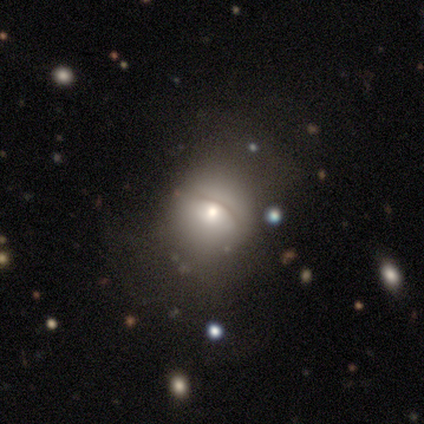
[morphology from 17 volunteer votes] This appears to be a smooth galaxy with no disk features (53%) that is round (67%). Merging: none (47%).